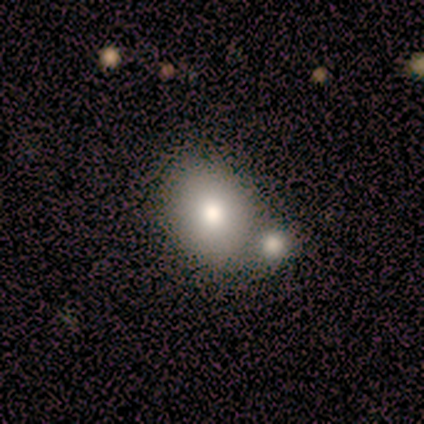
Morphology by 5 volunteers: type=smooth (100%); roundness=in between (80%); merging=none (80%).